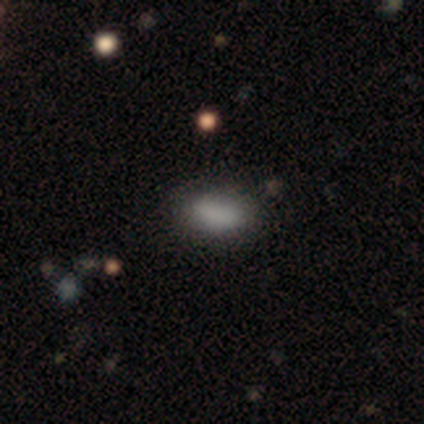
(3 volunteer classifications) This is likely a smooth galaxy (67%). How rounded: clearly in between (100%). Merging: clearly none (100%).